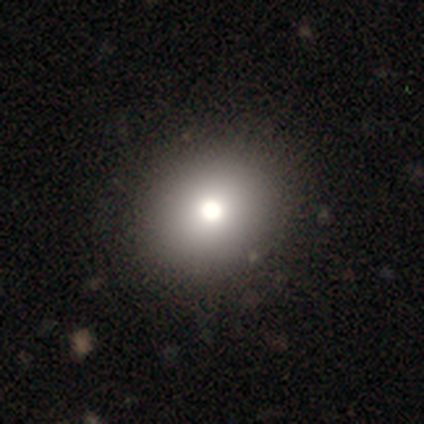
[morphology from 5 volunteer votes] A smooth galaxy with no disk features (80%) that is round (50%, tied with in between). Merging: none (100%).